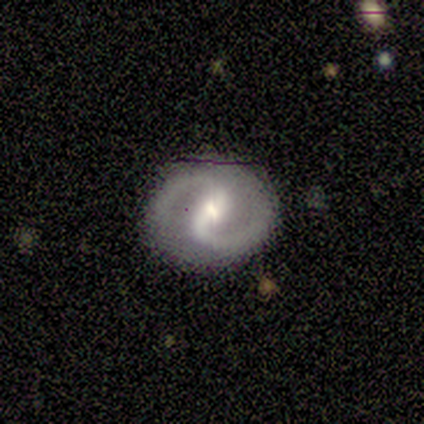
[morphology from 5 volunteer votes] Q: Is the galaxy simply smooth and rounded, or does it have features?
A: featured or disk — 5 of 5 (100%).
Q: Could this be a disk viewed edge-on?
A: no — 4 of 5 (80%).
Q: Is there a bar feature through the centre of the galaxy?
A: strong — 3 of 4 (75%).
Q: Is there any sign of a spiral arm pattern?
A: yes — 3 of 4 (75%).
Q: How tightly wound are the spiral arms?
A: medium — 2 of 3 (67%).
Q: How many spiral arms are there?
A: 2 — 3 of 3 (100%).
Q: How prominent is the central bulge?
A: small — 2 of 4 (50%).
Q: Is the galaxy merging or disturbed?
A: none — 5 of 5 (100%).